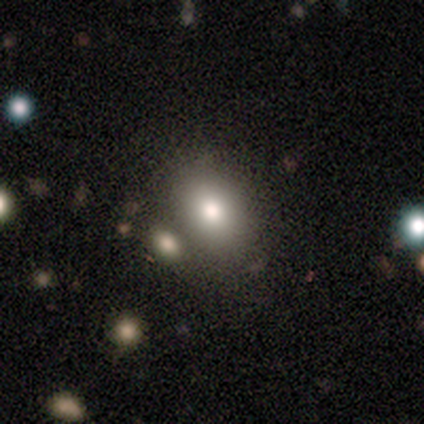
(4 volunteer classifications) Overall: smooth (75%). How rounded: in between (100%). Merging: none (50%, tied with merger).